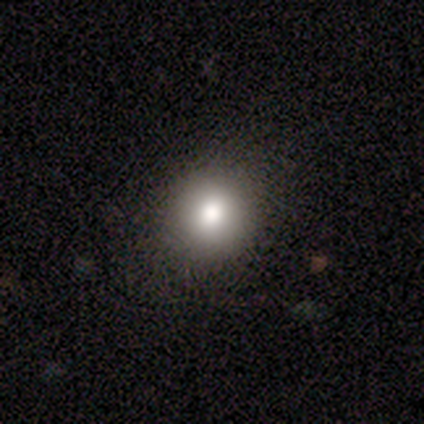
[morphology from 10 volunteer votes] Q: Smooth or featured?
A: smooth (70%); runner-up: star or artifact (20%)
Q: How rounded?
A: round (86%); runner-up: in between (14%)
Q: Merging?
A: none (100%)